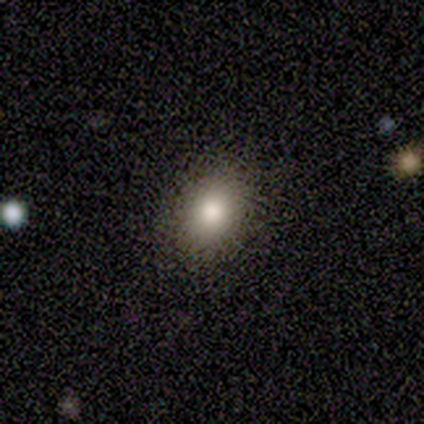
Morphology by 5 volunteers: Smooth or featured: smooth — 100%
How rounded: in between — 80% (round — 20%)
Merging: none — 80% (minor disturbance — 20%)